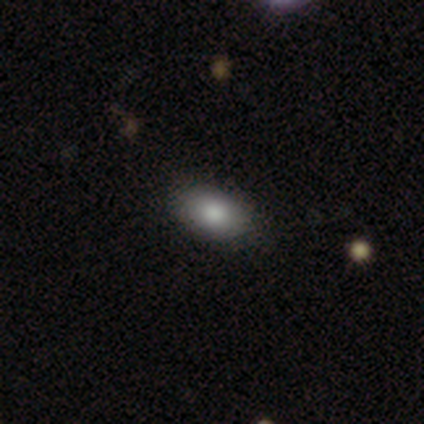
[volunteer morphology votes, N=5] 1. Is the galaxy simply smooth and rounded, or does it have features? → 60% smooth, 20% featured or disk, 20% star or artifact.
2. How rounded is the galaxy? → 100% in between, 0% round, 0% cigar-shaped.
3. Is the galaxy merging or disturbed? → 100% none, 0% minor disturbance, 0% major disturbance, 0% merger.